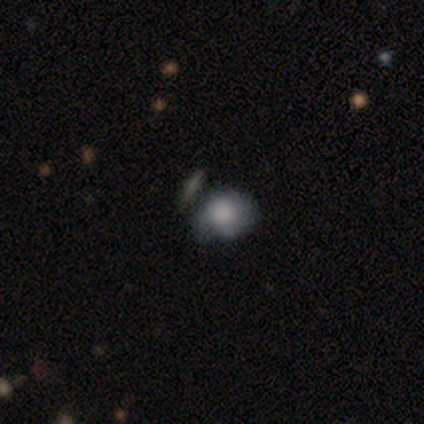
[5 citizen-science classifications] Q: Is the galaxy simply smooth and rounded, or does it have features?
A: smooth — 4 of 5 (80%).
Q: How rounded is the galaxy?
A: round — 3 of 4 (75%).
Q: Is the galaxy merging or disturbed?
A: minor disturbance — 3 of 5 (60%).